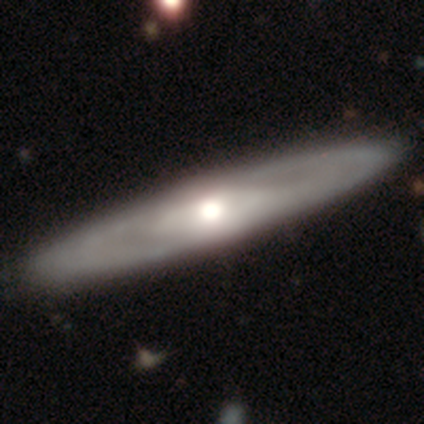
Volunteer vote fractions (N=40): featured or disk 80%, smooth 12%, star or artifact 8%. Down the decision tree: edge-on disk — yes (53%); edge-on bulge — rounded (100%); merging — none (73%).